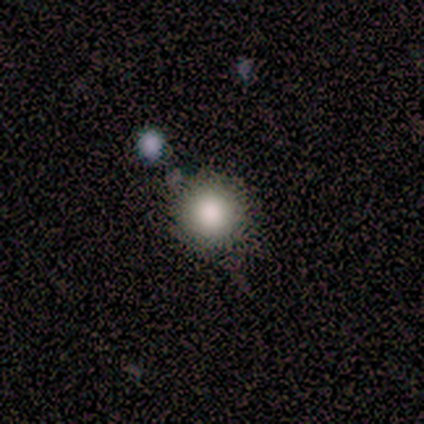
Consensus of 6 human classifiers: Overall: smooth (83%). How rounded: round (100%). Merging: none (83%).